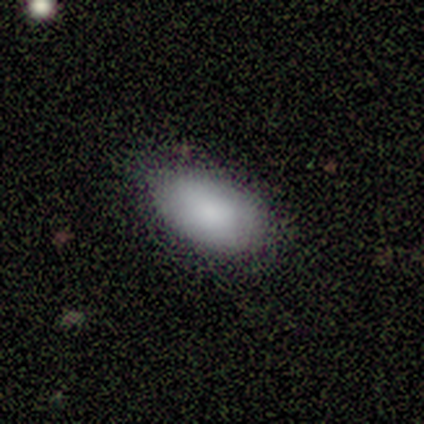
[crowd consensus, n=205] This is clearly a smooth galaxy (90%). How rounded: clearly in between (97%). Merging: likely none (69%).